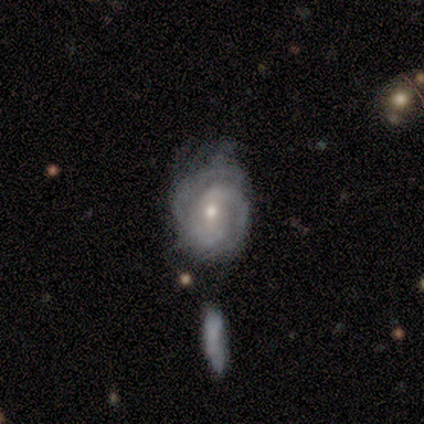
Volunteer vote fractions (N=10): A featured or disk galaxy (90%) with no bar (67%), 2 (67%) tight (56%) spiral arms (100%) and a small central bulge (67%). Merging: none (50%).